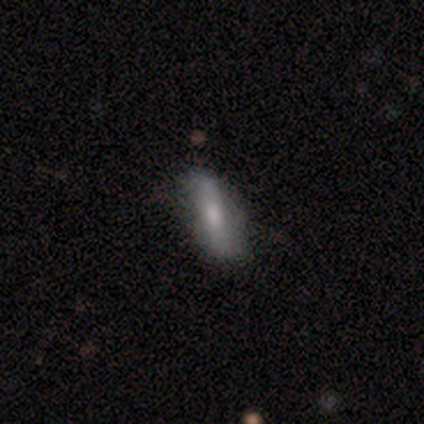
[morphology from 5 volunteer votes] Smooth or featured?
  - smooth: 80% *
  - featured or disk: 20%
  - star or artifact: 0%
How rounded?
  - in between: 75% *
  - cigar-shaped: 25%
  - round: 0%
Merging?
  - minor disturbance: 60% *
  - none: 40%
  - major disturbance: 0%
  - merger: 0%